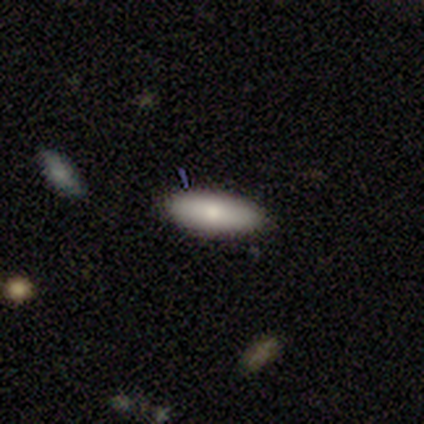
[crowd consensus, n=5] Overall: smooth (100%). How rounded: in between (60%; cigar-shaped 40%). Merging: none (80%).